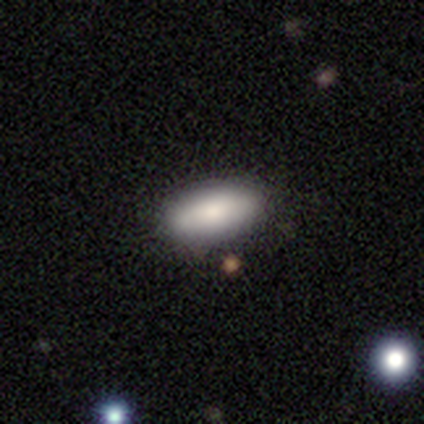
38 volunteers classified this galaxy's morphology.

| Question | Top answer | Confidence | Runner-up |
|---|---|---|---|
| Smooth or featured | smooth | 76% | featured or disk (16%) |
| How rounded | in between | 86% | cigar-shaped (10%) |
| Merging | none | 71% | minor disturbance (23%) |